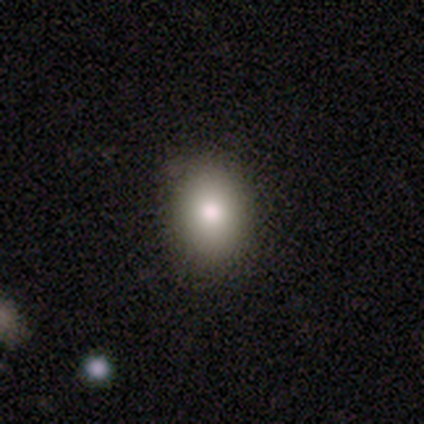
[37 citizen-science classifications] Smooth or featured: smooth — 81% (star or artifact — 16%)
How rounded: in between — 60% (round — 40%)
Merging: none — 94% (minor disturbance — 6%)